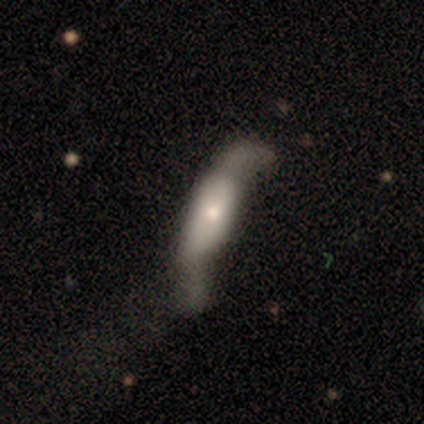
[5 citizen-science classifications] Smooth or featured? smooth (60%)
How rounded? cigar-shaped (67%)
Merging? major disturbance (60%)